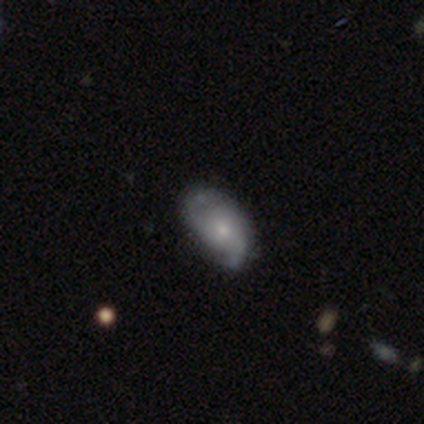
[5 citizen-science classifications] This is clearly a featured or disk galaxy (100%). It is clearly not viewed edge-on (80%). Bar: clearly no (100%). Spiral arm pattern: likely yes (75%). Spiral arm count: marginally 1 (33%, tied with 2 and can't tell). Spiral winding: clearly medium (100%). Central bulge: clearly small (100%). Merging: clearly none (80%).